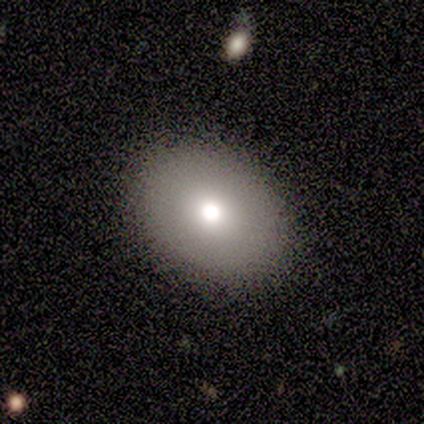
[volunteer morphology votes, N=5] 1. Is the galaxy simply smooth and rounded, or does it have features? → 100% smooth, 0% featured or disk, 0% star or artifact.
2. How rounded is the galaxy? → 60% round, 40% in between, 0% cigar-shaped.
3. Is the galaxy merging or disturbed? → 100% none, 0% minor disturbance, 0% major disturbance, 0% merger.